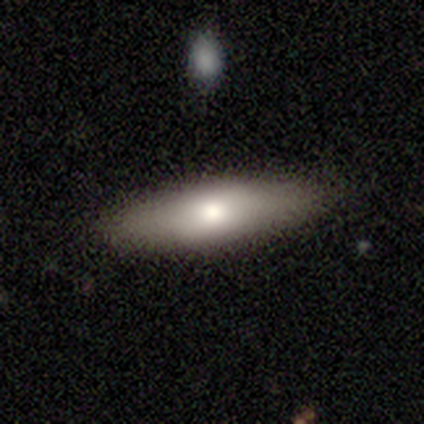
Q: Smooth or featured?
A: smooth (60%); runner-up: featured or disk (40%)
Q: How rounded?
A: cigar-shaped (67%); runner-up: in between (33%)
Q: Merging?
A: none (100%)